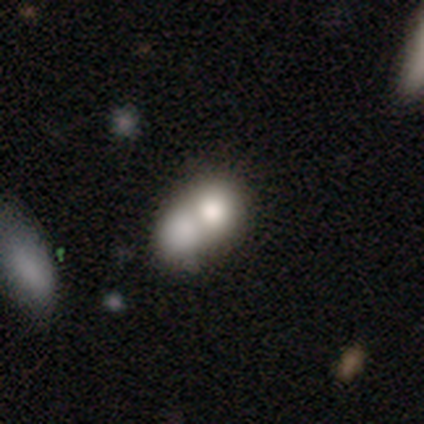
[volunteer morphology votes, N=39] Smooth or featured? 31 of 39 (79%) said smooth. How rounded? 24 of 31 (77%) said round. Merging? 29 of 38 (76%) said merger.